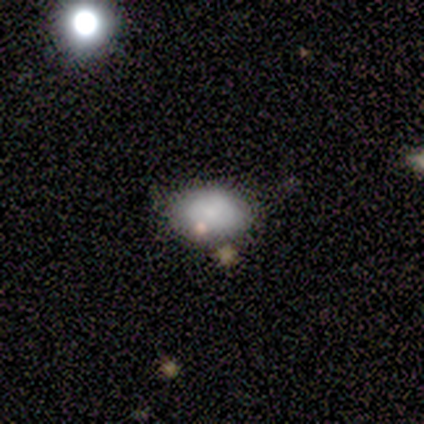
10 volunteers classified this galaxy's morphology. Overall: smooth (80%). How rounded: in between (100%). Merging: none (80%).